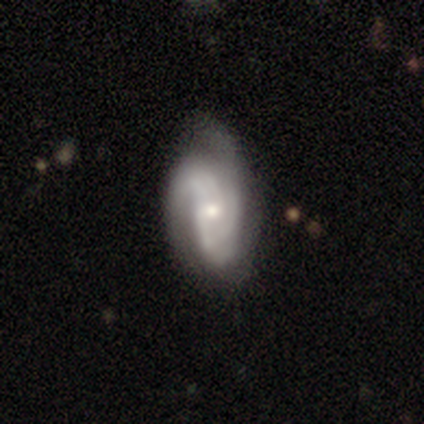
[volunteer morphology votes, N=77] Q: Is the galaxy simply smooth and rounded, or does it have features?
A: featured or disk — 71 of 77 (92%).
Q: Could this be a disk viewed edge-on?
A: no — 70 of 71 (99%).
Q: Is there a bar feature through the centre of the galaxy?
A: no — 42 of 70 (60%).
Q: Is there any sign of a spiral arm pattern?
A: yes — 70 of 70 (100%).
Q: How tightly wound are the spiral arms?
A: medium — 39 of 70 (56%).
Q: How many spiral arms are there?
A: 2 — 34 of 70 (49%).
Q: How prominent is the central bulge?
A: moderate — 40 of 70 (57%).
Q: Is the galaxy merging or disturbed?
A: none — 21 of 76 (28%).